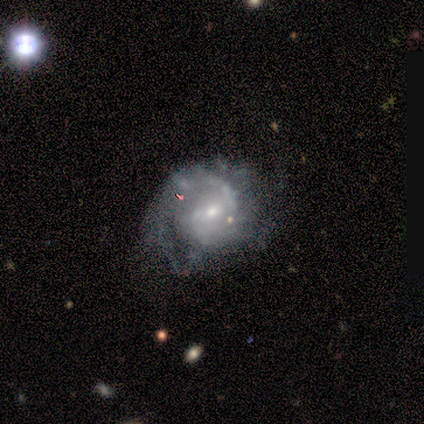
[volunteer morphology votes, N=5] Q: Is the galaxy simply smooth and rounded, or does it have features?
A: featured or disk — 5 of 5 (100%).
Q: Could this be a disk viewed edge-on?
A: no — 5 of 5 (100%).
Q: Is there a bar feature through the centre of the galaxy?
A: weak — 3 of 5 (60%).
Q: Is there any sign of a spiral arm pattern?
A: yes — 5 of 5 (100%).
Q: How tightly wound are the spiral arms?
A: medium — 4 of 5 (80%).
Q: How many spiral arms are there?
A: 2 — 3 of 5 (60%).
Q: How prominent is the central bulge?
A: small — 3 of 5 (60%).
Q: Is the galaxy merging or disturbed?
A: none — 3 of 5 (60%).